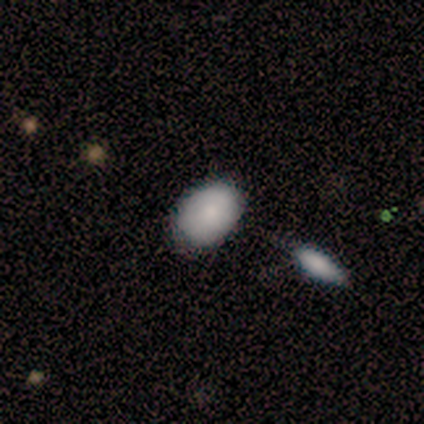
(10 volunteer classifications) Morphology: type=smooth (100%); roundness=in between (70%); merging=none (70%).